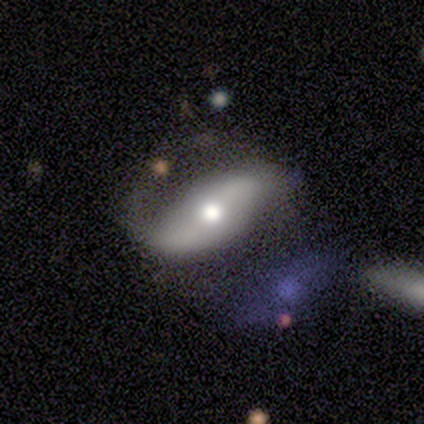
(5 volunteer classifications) A featured or disk galaxy (80%) with a weak bar (50%, tied with no), 2 (67%) loose (67%) spiral arms (75%) and a moderate central bulge (75%). Merging: none (60%).